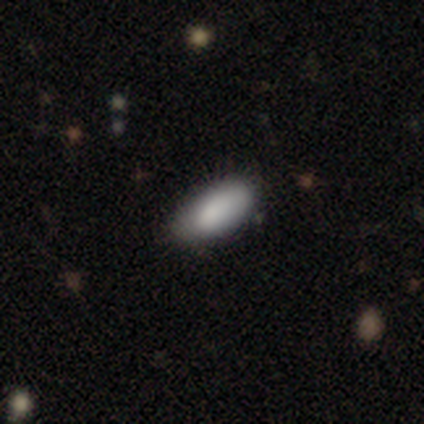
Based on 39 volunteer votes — smooth-or-featured: smooth: 77% | star or artifact: 13% | featured or disk: 10%
  how-rounded: in between: 87% | cigar-shaped: 13% | round: 0%
  merging: none: 65% | minor disturbance: 35% | major disturbance: 0% | merger: 0%